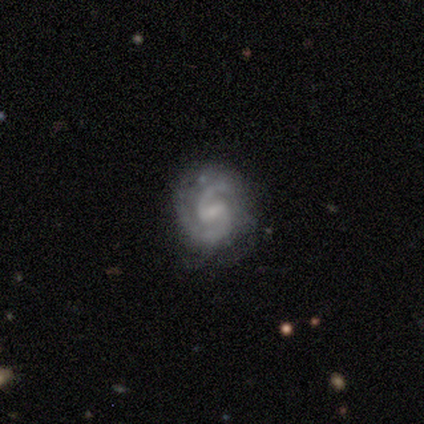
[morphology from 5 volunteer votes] Volunteers were most divided on "spiral winding": medium: 60%, tight: 20%, loose: 20%. More confident: smooth or featured — featured or disk (100%); edge-on disk — no (100%); spiral arms — yes (100%); spiral arm count — 2 (100%); bar — weak (80%); merging — none (80%); bulge size — small (60%).